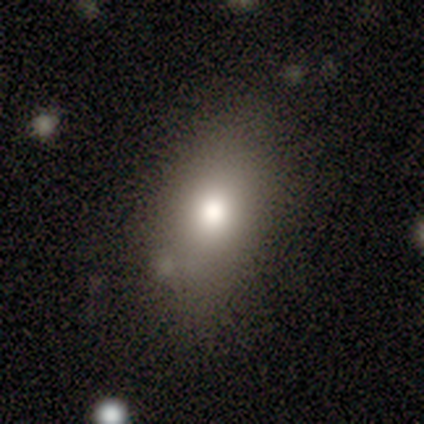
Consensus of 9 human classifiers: A smooth galaxy with no disk features (78%) that is in between round and cigar-shaped (86%). Merging: none (88%).